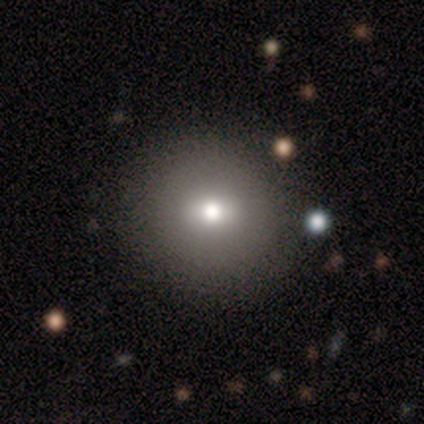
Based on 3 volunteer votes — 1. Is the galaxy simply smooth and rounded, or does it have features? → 100% smooth, 0% featured or disk, 0% star or artifact.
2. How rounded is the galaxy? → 67% round, 33% in between, 0% cigar-shaped.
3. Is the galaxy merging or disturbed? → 100% none, 0% minor disturbance, 0% major disturbance, 0% merger.